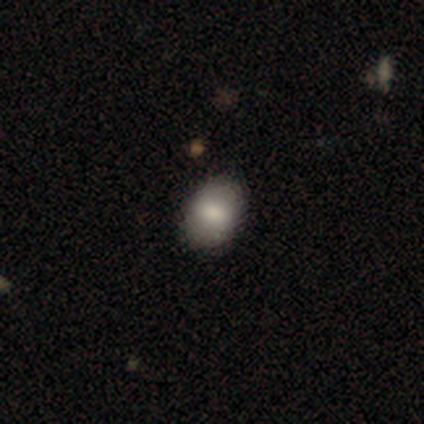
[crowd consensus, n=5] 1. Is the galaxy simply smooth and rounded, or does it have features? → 100% smooth, 0% featured or disk, 0% star or artifact.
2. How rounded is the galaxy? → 60% in between, 40% round, 0% cigar-shaped.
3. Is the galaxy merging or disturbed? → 80% none, 20% minor disturbance, 0% major disturbance, 0% merger.